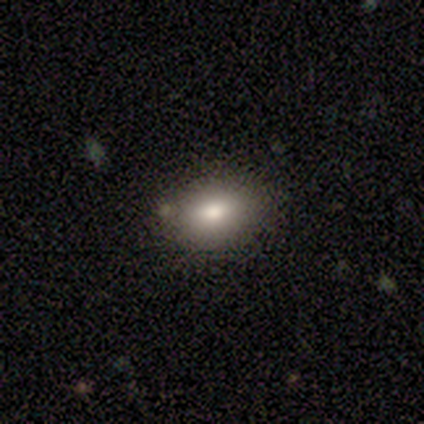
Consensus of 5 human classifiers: Smooth or featured: smooth — 80% (star or artifact — 20%)
How rounded: in between — 75% (round — 25%)
Merging: none — 50% (tied with minor disturbance — 50%)